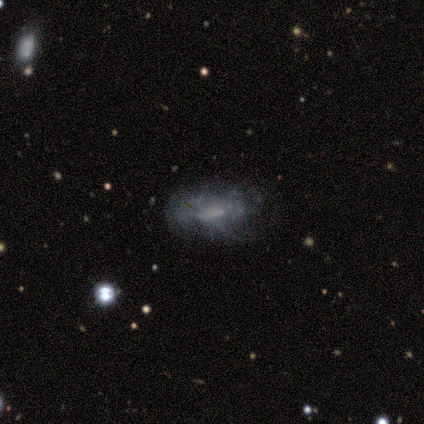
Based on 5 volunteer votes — Smooth or featured?
  - smooth: 40% * (tied)
  - featured or disk: 40% * (tied)
  - star or artifact: 20%
How rounded?
  - in between: 50% * (tied)
  - cigar-shaped: 50% * (tied)
  - round: 0%
Merging?
  - none: 50% * (tied)
  - minor disturbance: 50% * (tied)
  - major disturbance: 0%
  - merger: 0%